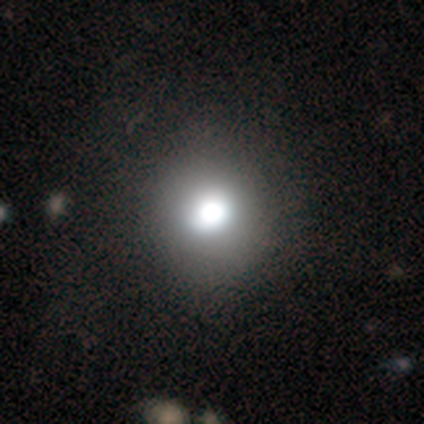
smooth_or_featured: smooth (p=0.77) [alt: star or artifact p=0.15]
how_rounded: round (p=0.90) [alt: in between p=0.10]
merging: none (p=0.91) [alt: minor disturbance p=0.09]